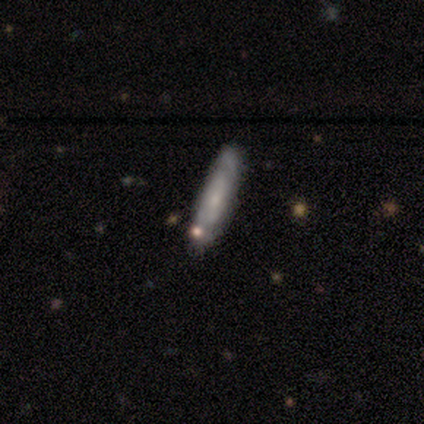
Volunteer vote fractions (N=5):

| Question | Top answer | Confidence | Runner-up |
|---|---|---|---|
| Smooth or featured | smooth | 60% | featured or disk (40%) |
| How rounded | cigar-shaped | 100% | — |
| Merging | none | 80% | minor disturbance (20%) |